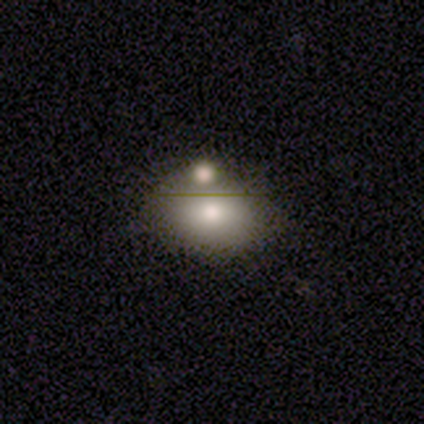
Overall: smooth (63%; featured or disk 24%). How rounded: in between (88%). Merging: none (48%; merger 33%).